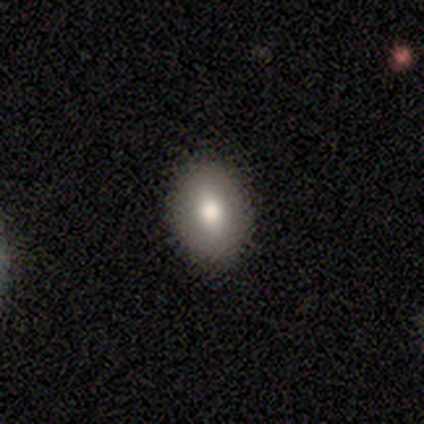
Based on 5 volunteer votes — smooth 100%, featured or disk 0%, star or artifact 0%. Down the decision tree: how rounded — in between (100%); merging — none (100%).